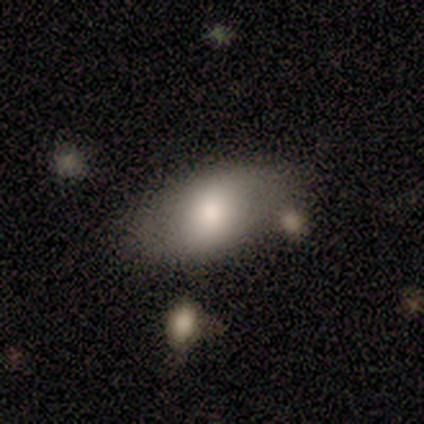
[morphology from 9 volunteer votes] This appears to be a smooth galaxy with no disk features (78%) that is in between round and cigar-shaped (86%). Merging: minor disturbance (56%).